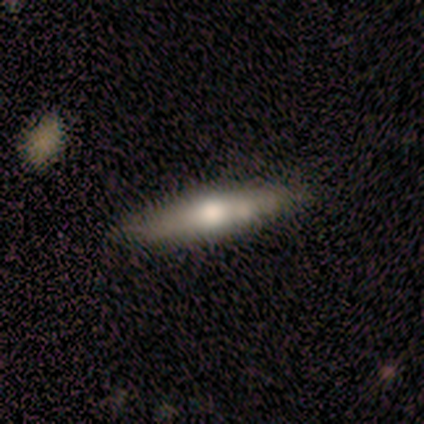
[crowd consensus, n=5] Smooth or featured? 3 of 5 (60%) said featured or disk. Edge-on disk? 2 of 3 (67%) said yes. Edge-on bulge? 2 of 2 (100%) said rounded. Merging? 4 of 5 (80%) said none.